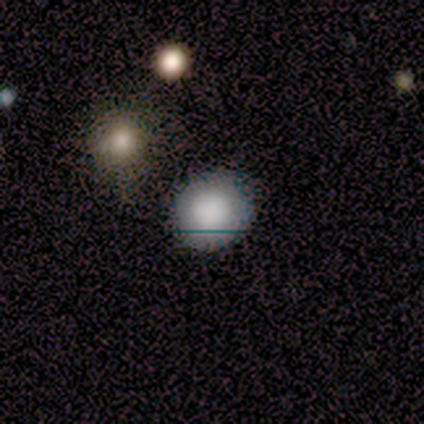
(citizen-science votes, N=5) smooth_or_featured: smooth (p=0.80) [alt: featured or disk p=0.20]
how_rounded: round (p=1.00)
merging: none (p=0.80) [alt: major disturbance p=0.20]